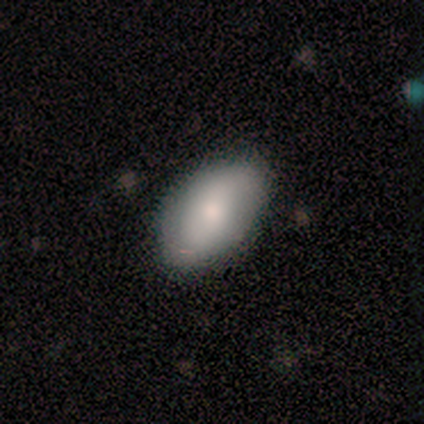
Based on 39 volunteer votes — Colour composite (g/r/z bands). It shows a smooth galaxy with no disk features (59%) that is in between round and cigar-shaped (96%). Merging: none (92%).